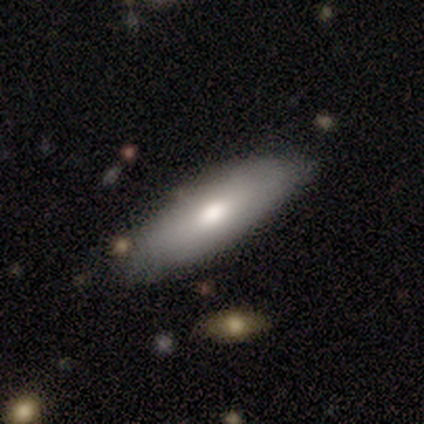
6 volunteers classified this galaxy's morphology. type=smooth (67%); roundness=in between (100%); merging=none (67%).